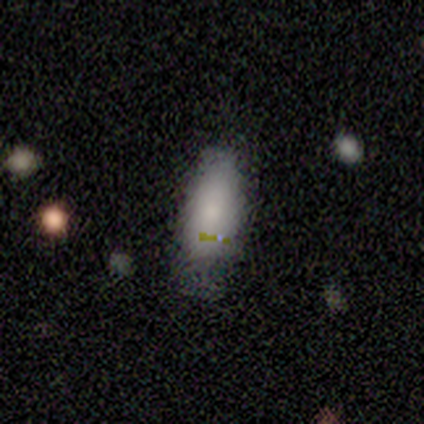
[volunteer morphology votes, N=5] Smooth or featured? smooth (80%)
How rounded? in between (100%)
Merging? none (75%)